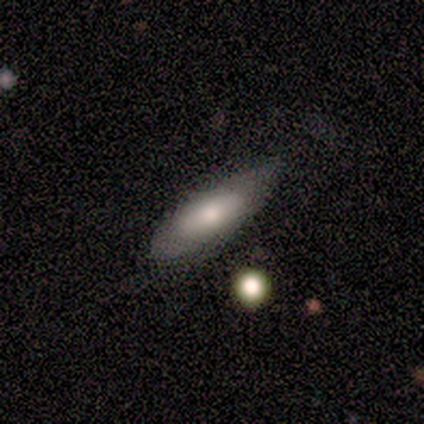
Smooth or featured? smooth (60%)
How rounded? in between (67%)
Merging? none (40%, tied with major disturbance)